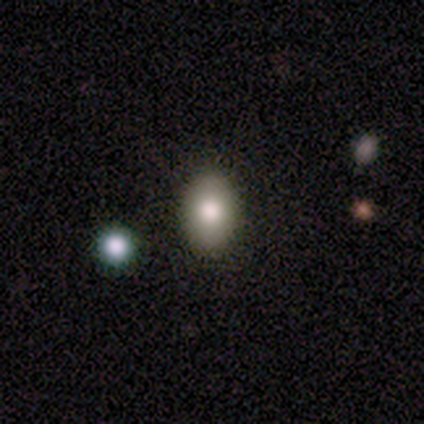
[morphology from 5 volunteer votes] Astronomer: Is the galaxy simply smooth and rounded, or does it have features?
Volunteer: featured or disk — 60% (runner-up: smooth, 40%).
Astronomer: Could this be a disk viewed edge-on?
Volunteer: no — 100%.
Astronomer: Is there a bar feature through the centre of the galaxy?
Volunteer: no — 100%.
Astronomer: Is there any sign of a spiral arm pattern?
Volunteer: no — 100%.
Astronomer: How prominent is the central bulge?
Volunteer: moderate — 67%.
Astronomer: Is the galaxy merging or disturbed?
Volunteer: none — 100%.